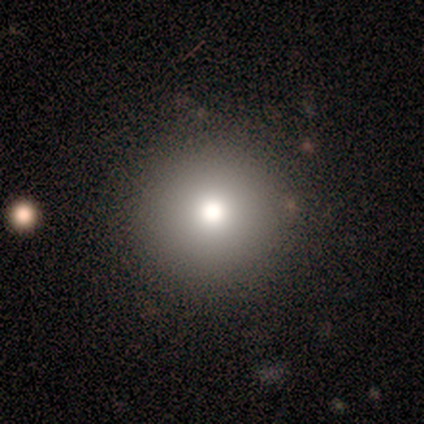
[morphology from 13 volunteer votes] smooth 46% (tied), star or artifact 46% (tied), featured or disk 8%. Down the decision tree: how rounded — round (100%); merging — none (100%).